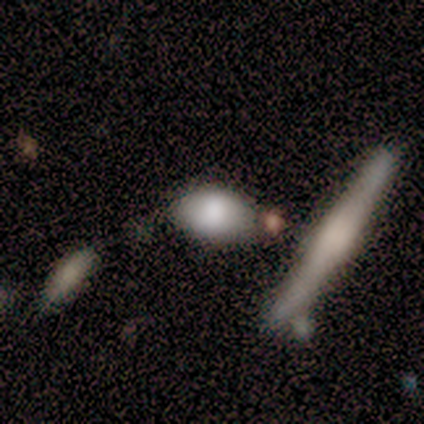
This appears to be a smooth galaxy with no disk features (100%) that is in between round and cigar-shaped (100%). Merging: none (60%).